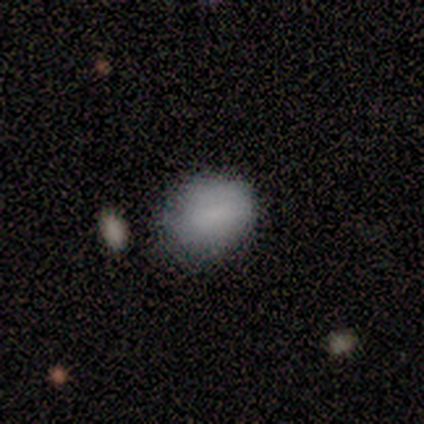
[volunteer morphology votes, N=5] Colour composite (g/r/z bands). It shows a smooth galaxy with no disk features (80%) that is round (50%, tied with in between). Merging: none (75%).